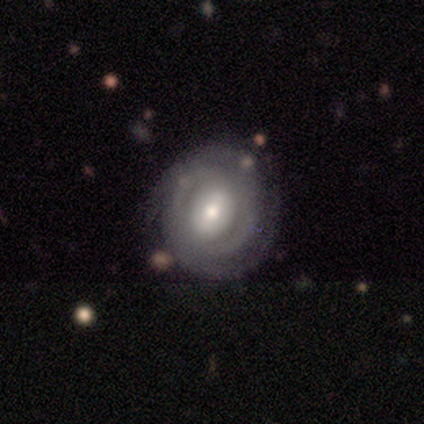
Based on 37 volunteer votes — smooth-or-featured: featured or disk: 89% | smooth: 8% | star or artifact: 3%
  disk-edge-on: no: 94% | yes: 6%
    bar: no: 48% | weak: 29% | strong: 23%
    has-spiral-arms: yes: 90% | no: 10%
      spiral-winding: tight: 71% | medium: 18% | loose: 11%
      spiral-arm-count: can't tell: 39% | 2: 29% | 3: 18% | 4: 7% | 1: 4% | more than 4: 4%
    bulge-size: moderate: 55% | small: 35% | large: 6% | none: 3% | dominant: 0%
  merging: none: 83% | minor disturbance: 11% | major disturbance: 3% | merger: 3%